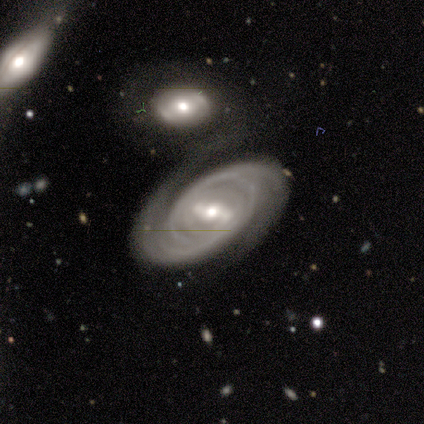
Smooth or featured? 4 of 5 (80%) said featured or disk. Edge-on disk? 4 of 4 (100%) said no. Bar? 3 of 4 (75%) said weak. Spiral arms? 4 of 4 (100%) said yes. Spiral winding? 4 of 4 (100%) said tight. Spiral arm count? 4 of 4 (100%) said 2. Bulge size? 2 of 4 (50%, tied with small) said moderate. Merging? 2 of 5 (40%, tied with minor disturbance) said none.